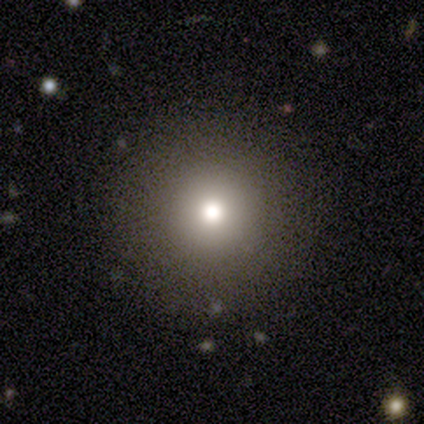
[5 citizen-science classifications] A smooth galaxy with no disk features (60%) that is round (100%). Merging: none (75%).